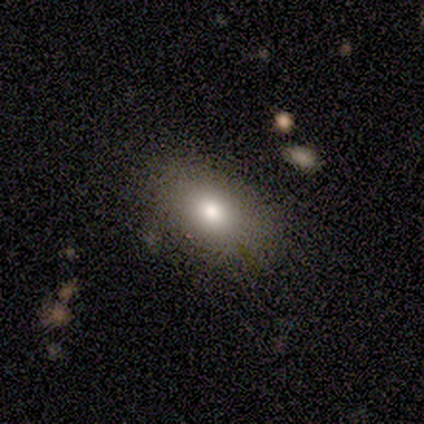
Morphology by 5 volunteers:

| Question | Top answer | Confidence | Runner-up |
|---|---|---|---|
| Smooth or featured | smooth | 60% | featured or disk (20%) |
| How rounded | in between | 67% | cigar-shaped (33%) |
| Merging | none | 50% | minor disturbance (25%) |